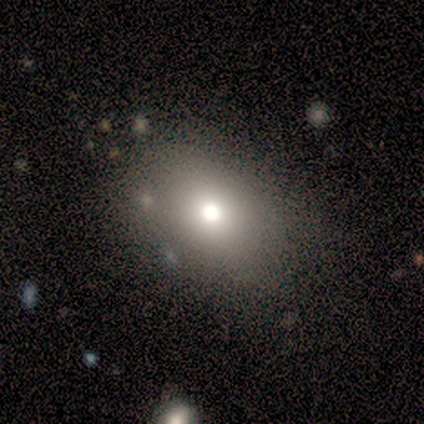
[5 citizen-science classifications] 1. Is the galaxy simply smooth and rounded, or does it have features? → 60% smooth, 40% star or artifact, 0% featured or disk.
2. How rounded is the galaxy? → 67% in between, 33% round, 0% cigar-shaped.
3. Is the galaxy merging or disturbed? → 100% none, 0% minor disturbance, 0% major disturbance, 0% merger.